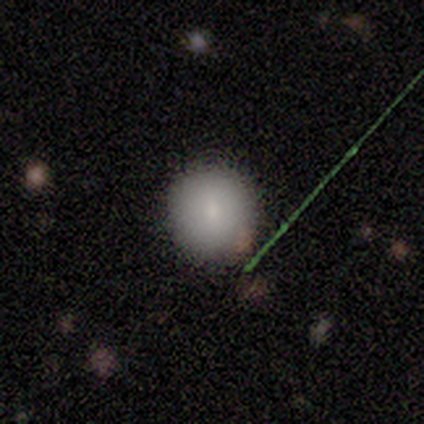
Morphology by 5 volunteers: This is clearly a smooth galaxy (100%). How rounded: clearly round (100%). Merging: clearly none (100%).